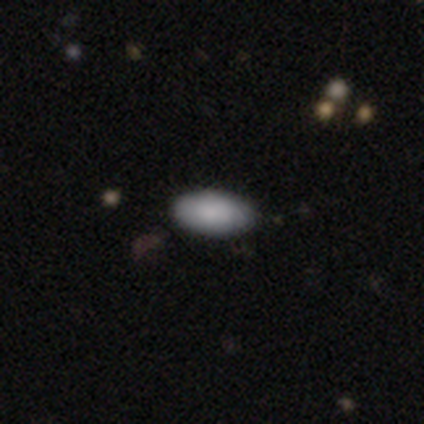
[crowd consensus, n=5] smooth-or-featured: smooth: 100% | featured or disk: 0% | star or artifact: 0%
  how-rounded: in between: 100% | round: 0% | cigar-shaped: 0%
  merging: none: 80% | minor disturbance: 20% | major disturbance: 0% | merger: 0%